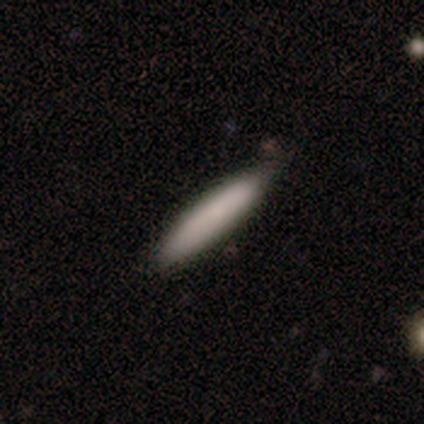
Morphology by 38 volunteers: Q: Smooth or featured?
A: smooth (82%); runner-up: featured or disk (11%)
Q: How rounded?
A: cigar-shaped (87%); runner-up: in between (13%)
Q: Merging?
A: none (89%); runner-up: minor disturbance (11%)